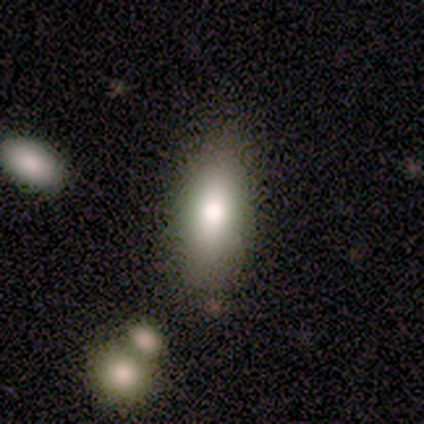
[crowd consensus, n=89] Smooth or featured?
  - smooth: 76% *
  - featured or disk: 12%
  - star or artifact: 11%
How rounded?
  - in between: 75% *
  - cigar-shaped: 22%
  - round: 3%
Merging?
  - none: 76% *
  - minor disturbance: 15%
  - merger: 5%
  - major disturbance: 4%